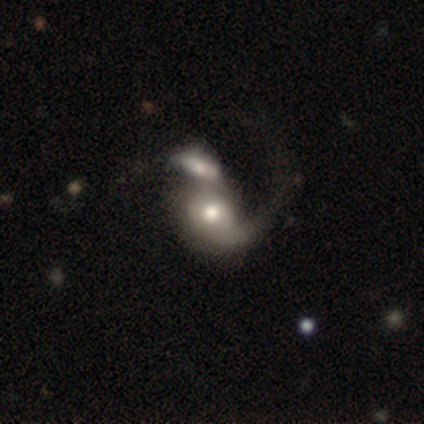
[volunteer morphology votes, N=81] Smooth or featured? featured or disk (64%)
Edge-on disk? no (96%)
Bar? no (92%)
Spiral arms? yes (72%)
Spiral winding? loose (72%)
Spiral arm count? 1 (72%)
Bulge size? moderate (70%)
Merging? merger (43%)